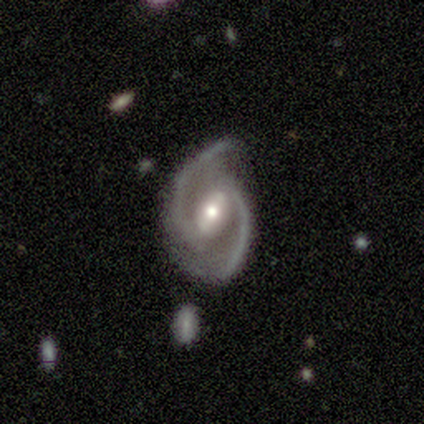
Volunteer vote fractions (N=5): This is clearly a featured or disk galaxy (80%). It is clearly not viewed edge-on (100%). Bar: likely strong (75%). Spiral arm pattern: clearly yes (100%). Spiral arm count: clearly 2 (100%). Spiral winding: likely medium (75%). Central bulge: clearly moderate (100%). Merging: likely minor disturbance (60%).